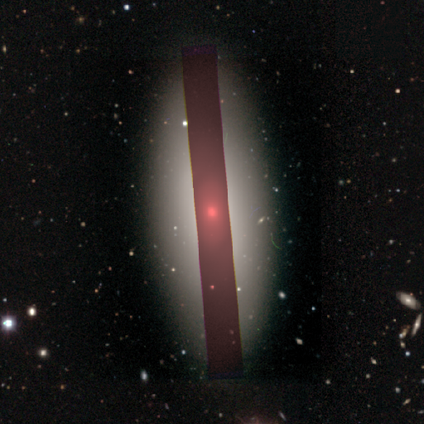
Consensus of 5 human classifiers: Smooth or featured? smooth (80%)
How rounded? in between (50%)
Merging? none (75%)